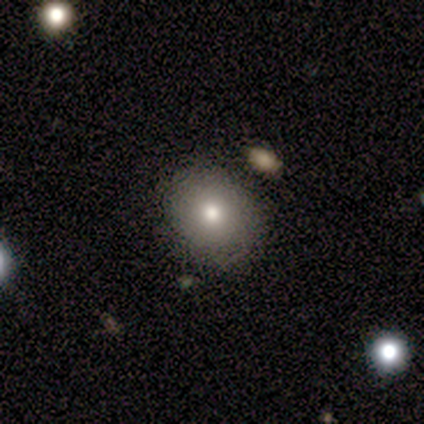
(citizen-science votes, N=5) smooth_or_featured: smooth (p=0.60) [alt: featured or disk p=0.20]
how_rounded: round (p=1.00)
merging: none (p=1.00)